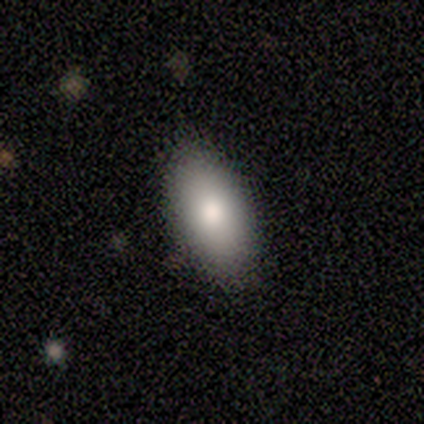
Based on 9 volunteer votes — Smooth or featured? 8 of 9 (89%) said smooth. How rounded? 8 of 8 (100%) said in between. Merging? 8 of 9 (89%) said none.